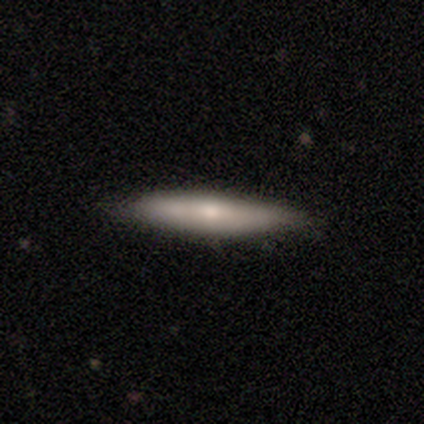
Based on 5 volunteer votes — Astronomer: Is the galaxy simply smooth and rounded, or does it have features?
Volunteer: smooth — 100%.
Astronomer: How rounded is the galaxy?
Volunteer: cigar-shaped — 80%.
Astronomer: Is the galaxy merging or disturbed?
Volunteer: none — 80%.